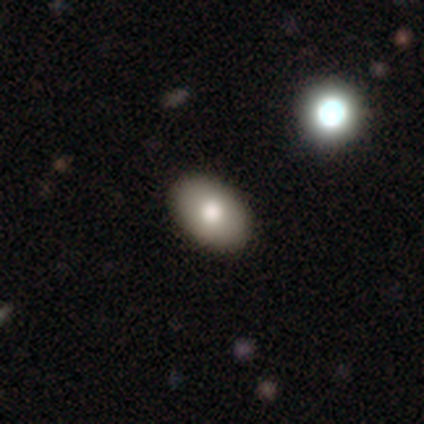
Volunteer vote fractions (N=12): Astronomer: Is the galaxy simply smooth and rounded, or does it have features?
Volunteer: smooth — 67%.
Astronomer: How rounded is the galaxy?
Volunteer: in between — 88%.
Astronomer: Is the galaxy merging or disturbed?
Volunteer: none — 73%.